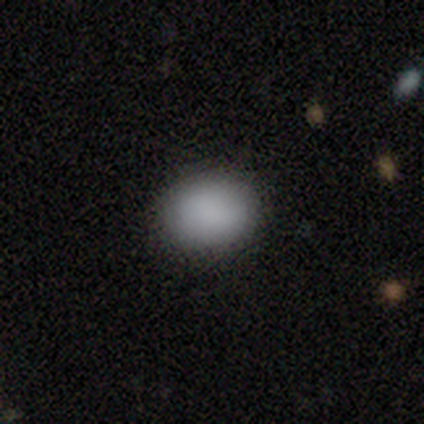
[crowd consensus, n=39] Smooth or featured?
  - smooth: 95% *
  - star or artifact: 5%
  - featured or disk: 0%
How rounded?
  - round: 49% * (tied)
  - in between: 49% * (tied)
  - cigar-shaped: 3%
Merging?
  - none: 86% *
  - minor disturbance: 8%
  - major disturbance: 5%
  - merger: 0%